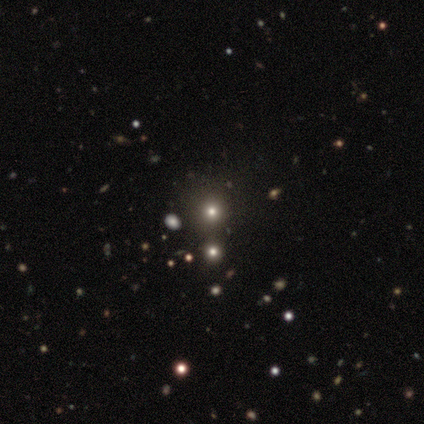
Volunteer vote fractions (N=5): Smooth or featured?
  - smooth: 40% * (tied)
  - star or artifact: 40% * (tied)
  - featured or disk: 20%
How rounded?
  - round: 100% *
  - in between: 0%
  - cigar-shaped: 0%
Merging?
  - none: 67% *
  - minor disturbance: 33%
  - major disturbance: 0%
  - merger: 0%